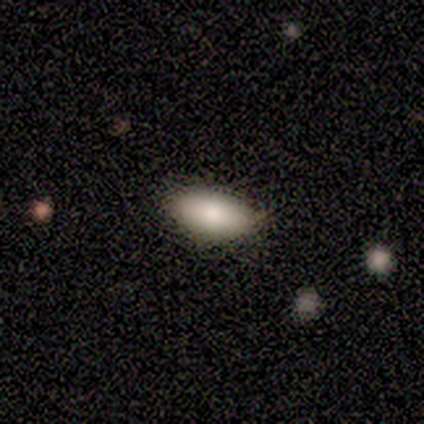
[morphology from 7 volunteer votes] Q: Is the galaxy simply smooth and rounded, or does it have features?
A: smooth — 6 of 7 (86%).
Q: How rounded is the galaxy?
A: in between — 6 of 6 (100%).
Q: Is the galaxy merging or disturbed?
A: none — 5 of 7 (71%).